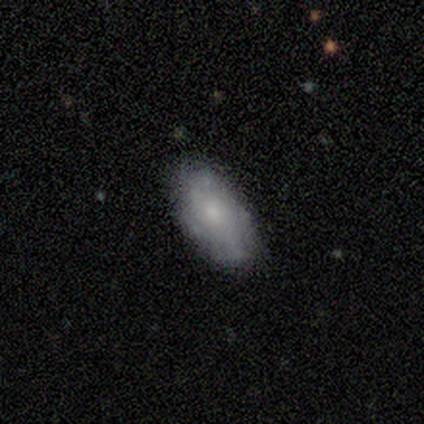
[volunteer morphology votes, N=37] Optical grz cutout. It shows a smooth galaxy with no disk features (68%) that is in between round and cigar-shaped (84%). Merging: none (72%).